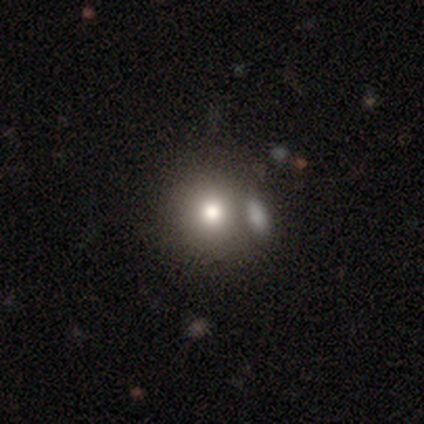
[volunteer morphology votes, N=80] type=smooth (84%); roundness=round (93%); merging=none (40%).